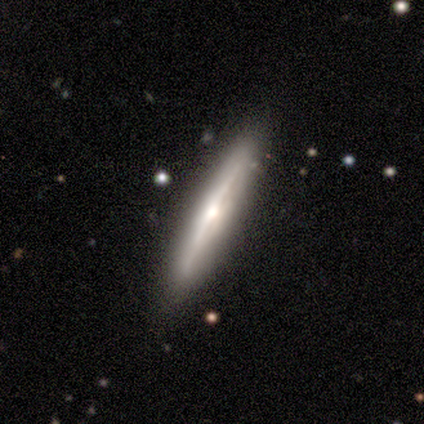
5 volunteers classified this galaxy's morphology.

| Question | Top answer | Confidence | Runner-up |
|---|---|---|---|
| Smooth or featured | featured or disk | 80% | smooth (20%) |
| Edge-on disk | yes | 100% | — |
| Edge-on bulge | boxy | 50% | tied: rounded (50%) |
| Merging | none | 100% | — |